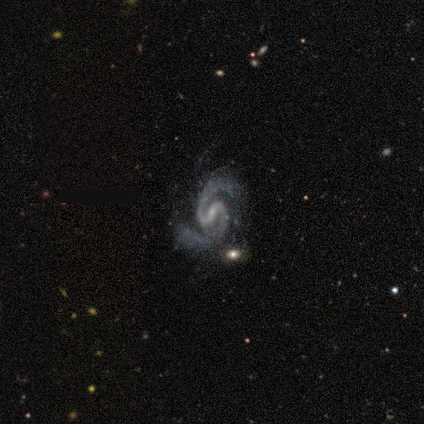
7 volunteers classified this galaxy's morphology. This appears to be a featured or disk galaxy (100%) with a weak bar (71%), 2 (100%) medium (100%) spiral arms (86%) and a small central bulge (71%). Merging: none (71%).